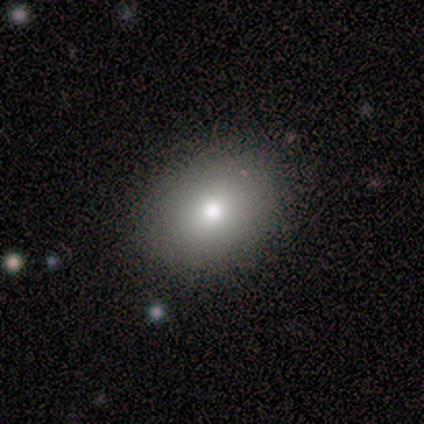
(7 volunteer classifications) Smooth or featured? smooth (71%)
How rounded? round (40%, tied with in between)
Merging? none (60%)